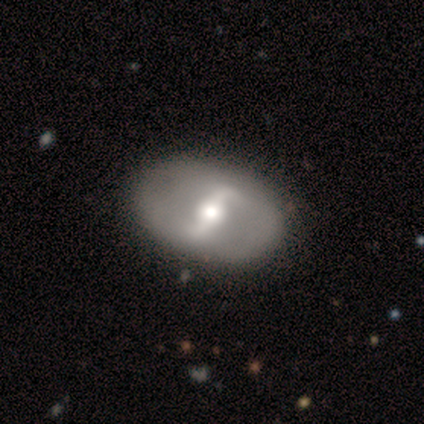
smooth_or_featured: featured or disk (p=0.84) [alt: smooth p=0.12]
disk_edge_on: no (p=0.96) [alt: yes p=0.04]
bar: strong (p=0.67) [alt: weak p=0.29]
has_spiral_arms: yes (p=0.51) [alt: no p=0.49]
spiral_winding: loose (p=0.46) [alt: medium p=0.29]
spiral_arm_count: 2 (p=0.86) [alt: can't tell p=0.11]
bulge_size: moderate (p=0.69) [alt: large p=0.16]
merging: none (p=0.80) [alt: minor disturbance p=0.15]